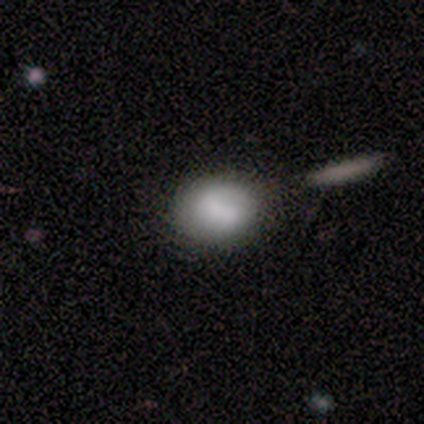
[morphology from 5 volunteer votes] A smooth galaxy with no disk features (60%) that is round (100%). Merging: minor disturbance (60%).